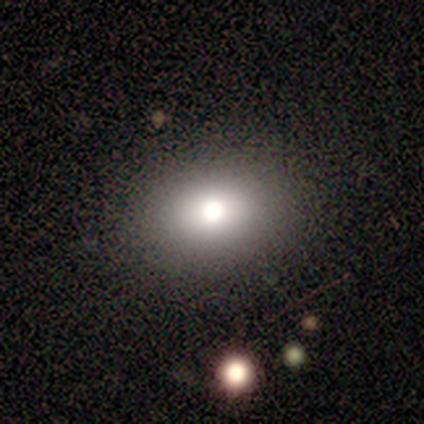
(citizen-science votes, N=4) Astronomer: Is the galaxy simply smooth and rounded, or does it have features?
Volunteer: smooth — 50%.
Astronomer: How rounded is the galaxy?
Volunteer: round — 50%, tied with in between at 50%.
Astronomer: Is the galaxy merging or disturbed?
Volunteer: none — 100%.